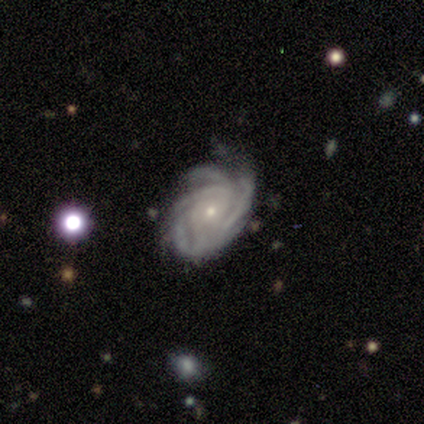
smooth-or-featured: featured or disk: 100% | smooth: 0% | star or artifact: 0%
  disk-edge-on: no: 100% | yes: 0%
    bar: no: 100% | strong: 0% | weak: 0%
    has-spiral-arms: yes: 100% | no: 0%
      spiral-winding: tight: 60% | medium: 40% | loose: 0%
      spiral-arm-count: can't tell: 60% | 4: 40% | 1: 0% | 2: 0% | 3: 0% | more than 4: 0%
    bulge-size: small: 80% | moderate: 20% | dominant: 0% | large: 0% | none: 0%
  merging: none: 60% | minor disturbance: 40% | major disturbance: 0% | merger: 0%